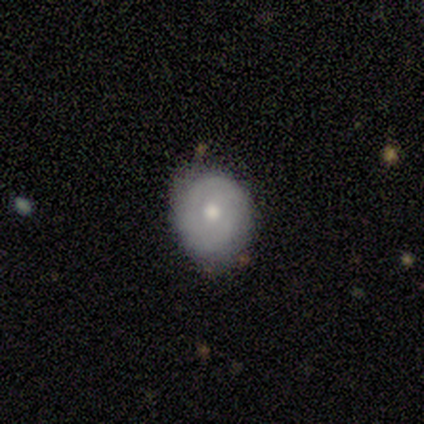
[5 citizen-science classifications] Overall: featured or disk (60%; smooth 40%). Edge-on disk: no (100%). Bar: no (100%). Spiral arms: no (67%; yes 33%). Bulge size: moderate (67%; small 33%). Merging: minor disturbance (60%; none 40%).